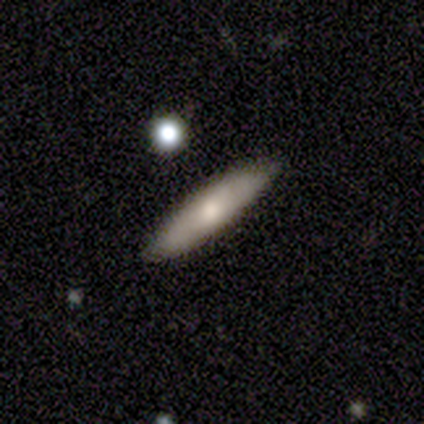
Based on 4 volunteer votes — Smooth or featured: smooth — 100%
How rounded: cigar-shaped — 75% (in between — 25%)
Merging: none — 100%